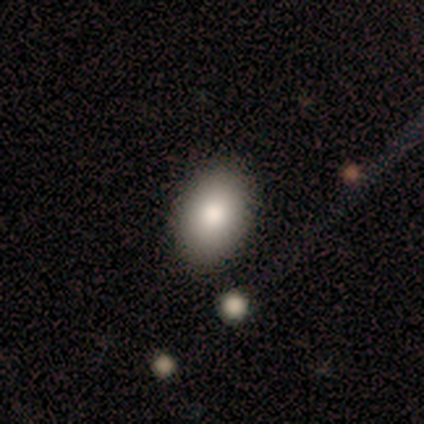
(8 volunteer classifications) Smooth or featured?
  - smooth: 75% *
  - featured or disk: 12%
  - star or artifact: 12%
How rounded?
  - in between: 83% *
  - round: 17%
  - cigar-shaped: 0%
Merging?
  - none: 100% *
  - minor disturbance: 0%
  - major disturbance: 0%
  - merger: 0%